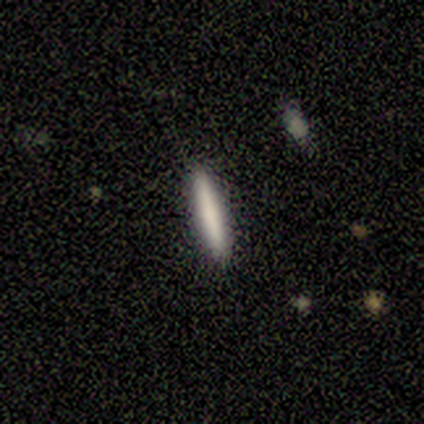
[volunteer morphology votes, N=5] Volunteers were most divided on "smooth or featured" (2-way tie): smooth: 40%, featured or disk: 40%, star or artifact: 20%. More confident: how rounded — cigar-shaped (100%); merging — none (100%).